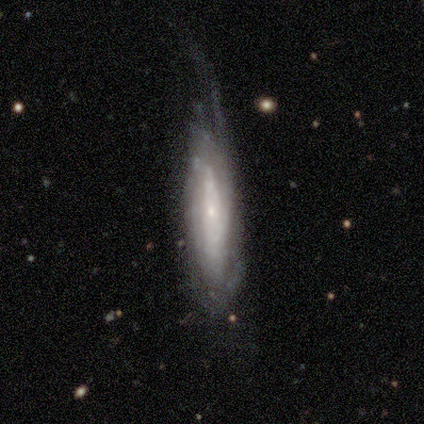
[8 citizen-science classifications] A featured or disk galaxy (75%) viewed edge-on (50%, tied with no) with a rounded central bulge (67%). Merging: major disturbance (57%).